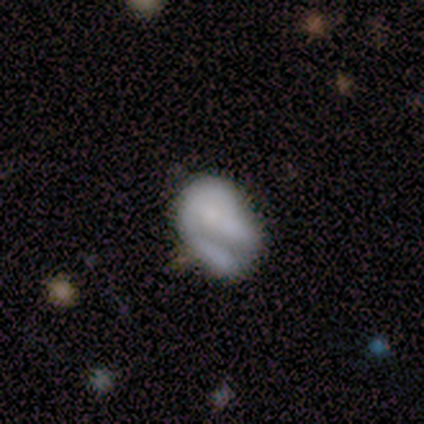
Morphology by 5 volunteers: This is likely a featured or disk galaxy (60%). It is clearly not viewed edge-on (100%). Bar: clearly no (100%). Spiral arm pattern: clearly no (100%). Central bulge: marginally moderate (33%, tied with small and none). Merging: marginally none (40%, tied with major disturbance).